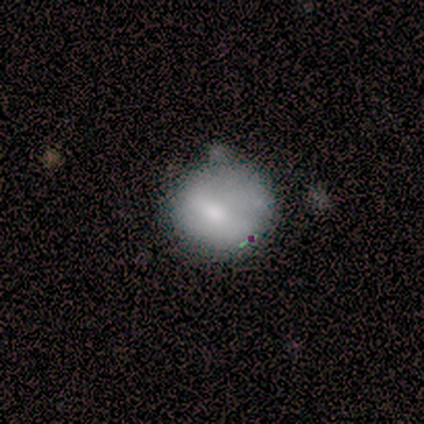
smooth 67%, featured or disk 33%, star or artifact 0%. Down the decision tree: how rounded — round (83%); merging — minor disturbance (56%).